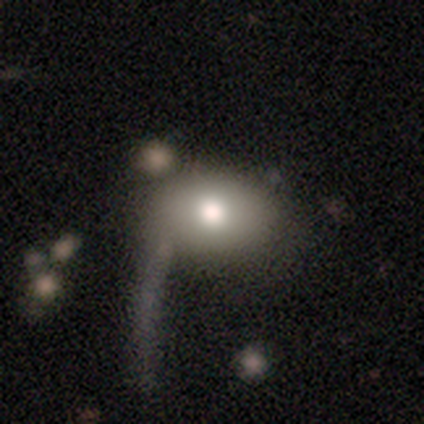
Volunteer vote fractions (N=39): Volunteers were most divided on "merging": major disturbance: 32%, none: 22%, minor disturbance: 5%, merger: 5%. More confident: how rounded — in between (83%); smooth or featured — smooth (77%).